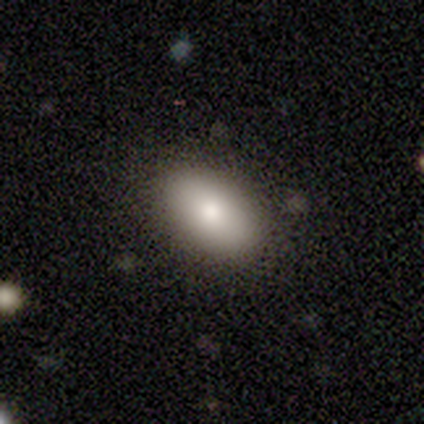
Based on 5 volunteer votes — A smooth galaxy with no disk features (80%) that is in between round and cigar-shaped (100%). Merging: none (100%).